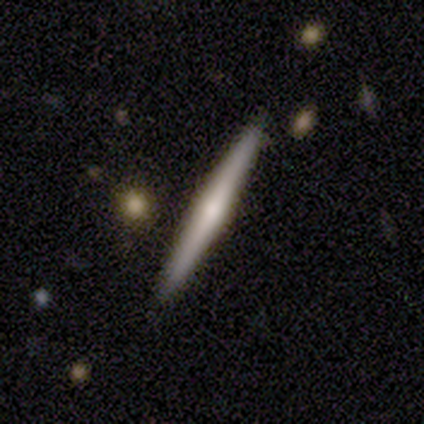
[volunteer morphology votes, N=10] smooth_or_featured: featured or disk (p=0.70) [alt: smooth p=0.30]
disk_edge_on: yes (p=1.00)
edge_on_bulge: rounded (p=0.43) [alt: boxy p=0.29]
merging: none (p=1.00)